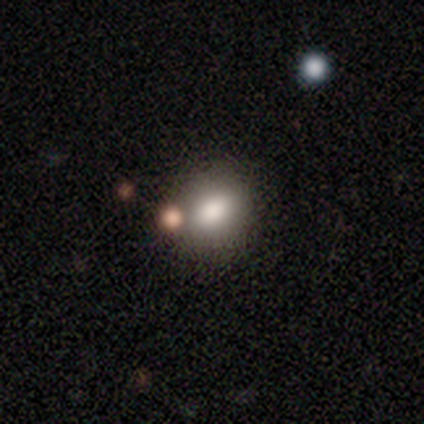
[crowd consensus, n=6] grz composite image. It shows a smooth galaxy with no disk features (83%) that is in between round and cigar-shaped (80%). Merging: none (100%).